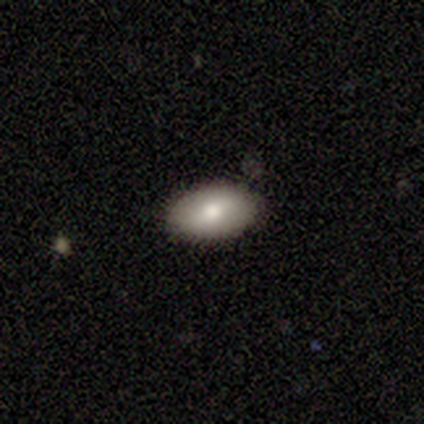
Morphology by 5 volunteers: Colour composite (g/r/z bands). It shows a smooth galaxy with no disk features (80%) that is in between round and cigar-shaped (75%). Merging: none (75%).